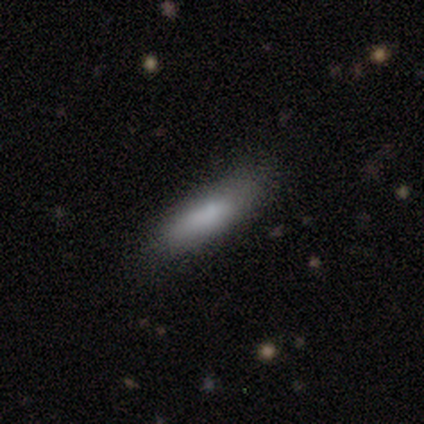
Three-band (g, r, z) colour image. It shows a smooth galaxy with no disk features (67%) that is in between round and cigar-shaped (50%, tied with cigar-shaped). Merging: none (100%).